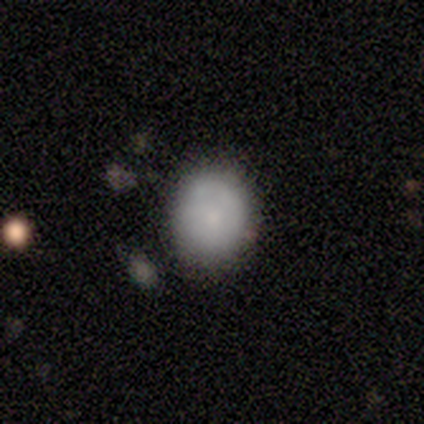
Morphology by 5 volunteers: This is marginally a smooth galaxy (40%, tied with featured or disk). How rounded: possibly round (50%, tied with in between). Merging: likely none (75%).